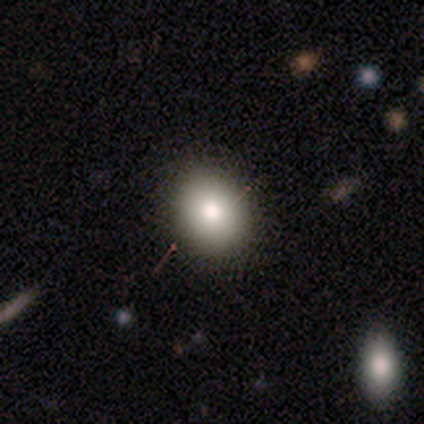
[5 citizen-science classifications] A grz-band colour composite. It shows a smooth galaxy with no disk features (60%) that is round (100%). Merging: none (100%).